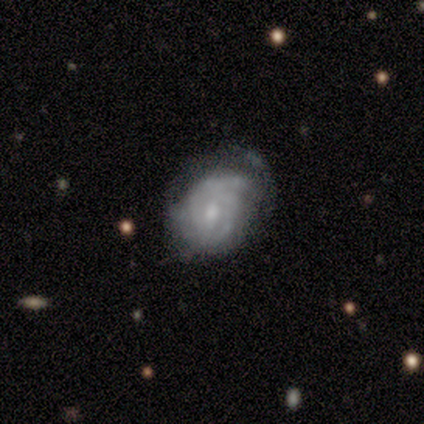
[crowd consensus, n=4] A featured or disk galaxy (100%) with a weak bar (75%), tight (50%, tied with medium) spiral arms (100%) and a small central bulge (75%). Merging: none (100%).